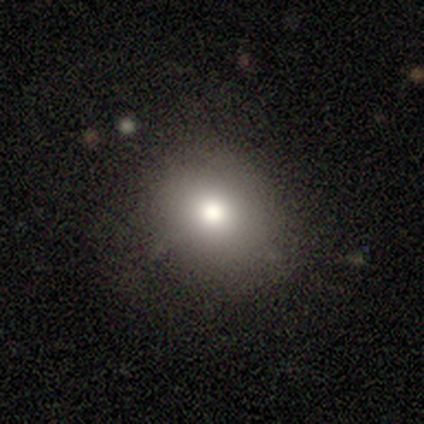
smooth_or_featured: smooth (p=1.00)
how_rounded: round (p=0.80) [alt: in between p=0.20]
merging: none (p=0.40) [tied with: minor disturbance p=0.40]